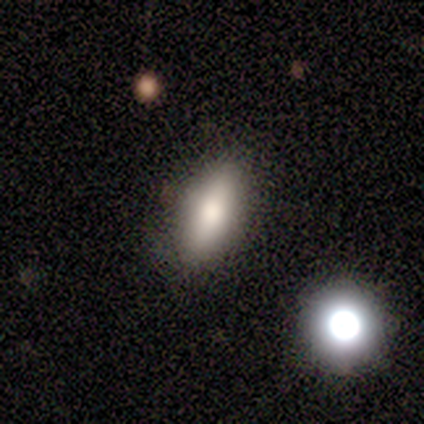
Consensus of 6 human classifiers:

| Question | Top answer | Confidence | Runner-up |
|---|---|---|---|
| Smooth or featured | smooth | 83% | featured or disk (17%) |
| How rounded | cigar-shaped | 60% | in between (40%) |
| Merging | none | 83% | major disturbance (17%) |